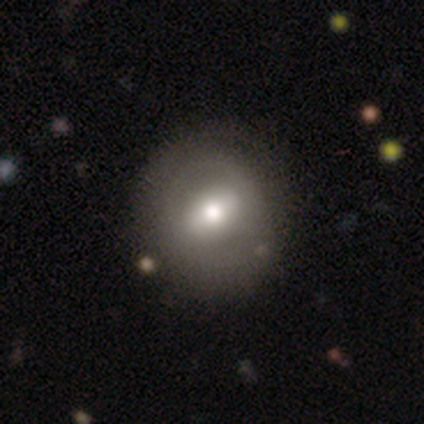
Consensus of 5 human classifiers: Overall: smooth (80%). How rounded: round (75%). Merging: none (80%).